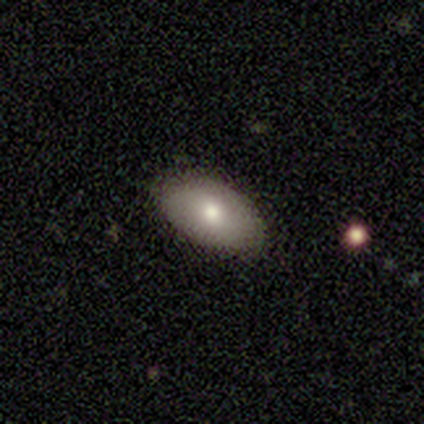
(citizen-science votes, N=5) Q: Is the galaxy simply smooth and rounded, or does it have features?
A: smooth — 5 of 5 (100%).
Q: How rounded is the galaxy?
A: in between — 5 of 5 (100%).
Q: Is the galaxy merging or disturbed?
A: none — 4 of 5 (80%).